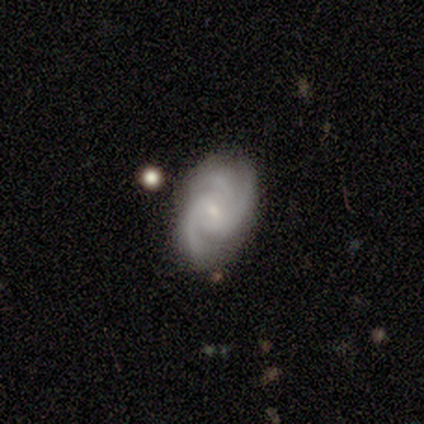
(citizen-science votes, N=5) This is clearly a featured or disk galaxy (80%). It is clearly not viewed edge-on (100%). Bar: possibly weak (50%, tied with no). Spiral arm pattern: clearly yes (100%). Spiral arm count: clearly 3 (100%). Spiral winding: possibly tight (50%, tied with medium). Central bulge: clearly small (100%). Merging: likely none (60%).